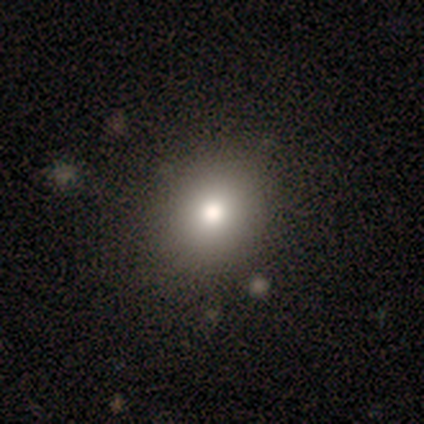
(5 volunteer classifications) Smooth or featured: smooth — 100%
How rounded: round — 60% (in between — 40%)
Merging: none — 80% (merger — 20%)